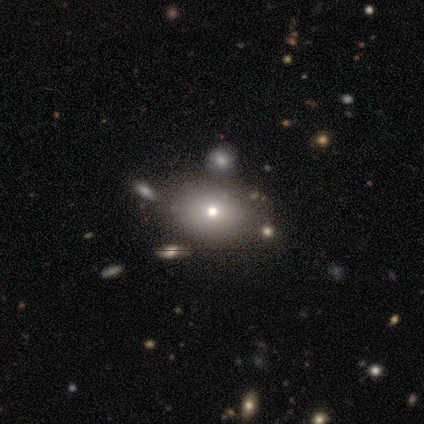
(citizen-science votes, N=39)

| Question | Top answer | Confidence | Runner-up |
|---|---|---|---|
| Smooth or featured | smooth | 72% | featured or disk (18%) |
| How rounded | in between | 75% | round (25%) |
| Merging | none | 83% | major disturbance (9%) |